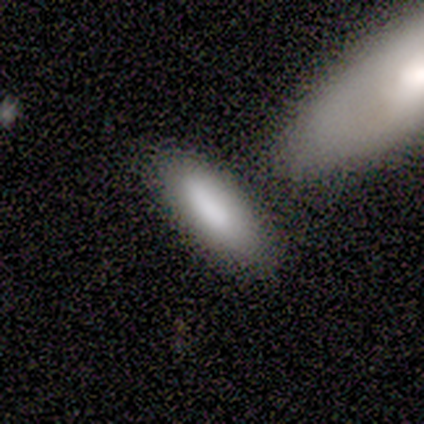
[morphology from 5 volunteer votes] A smooth galaxy with no disk features (80%) that is in between round and cigar-shaped (75%).

Vote fractions:
- Smooth or featured? smooth: 80% / featured or disk: 20% / star or artifact: 0%
- How rounded? in between: 75% / cigar-shaped: 25% / round: 0%
- Merging? minor disturbance: 40% (tied) / merger: 40% (tied) / none: 20% / major disturbance: 0%